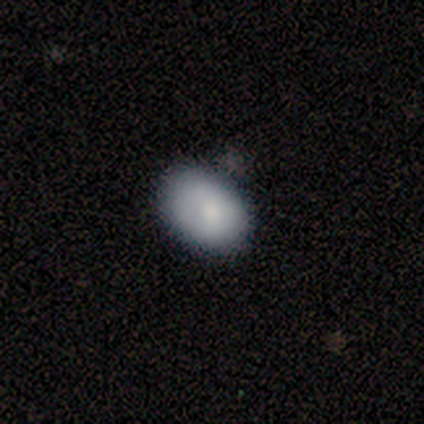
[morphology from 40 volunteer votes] A smooth galaxy with no disk features (75%) that is in between round and cigar-shaped (90%). Merging: none (76%).